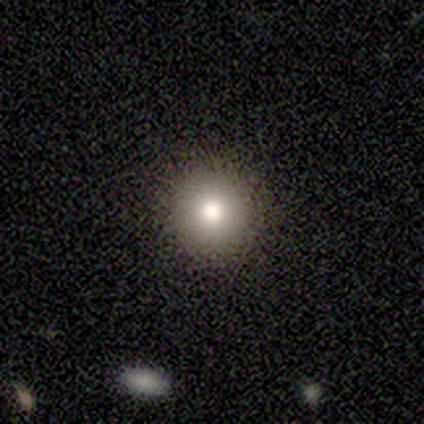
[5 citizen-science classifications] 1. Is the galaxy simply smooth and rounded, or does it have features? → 100% smooth, 0% featured or disk, 0% star or artifact.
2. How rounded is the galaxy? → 80% round, 20% in between, 0% cigar-shaped.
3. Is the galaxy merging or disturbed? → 80% none, 20% minor disturbance, 0% major disturbance, 0% merger.